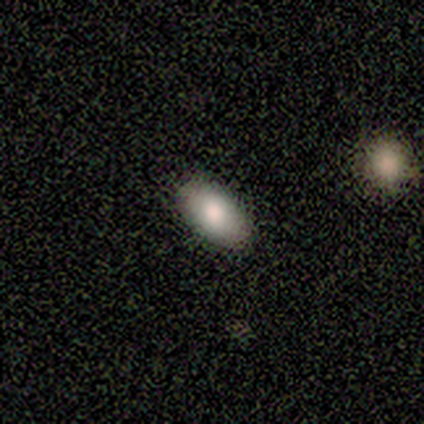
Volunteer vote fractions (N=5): Smooth or featured? 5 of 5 (100%) said smooth. How rounded? 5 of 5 (100%) said in between. Merging? 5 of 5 (100%) said none.